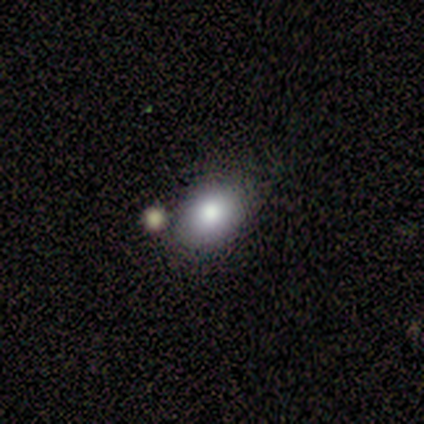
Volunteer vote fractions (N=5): Smooth or featured: smooth — 60% (star or artifact — 40%)
How rounded: in between — 100%
Merging: none — 67% (minor disturbance — 33%)